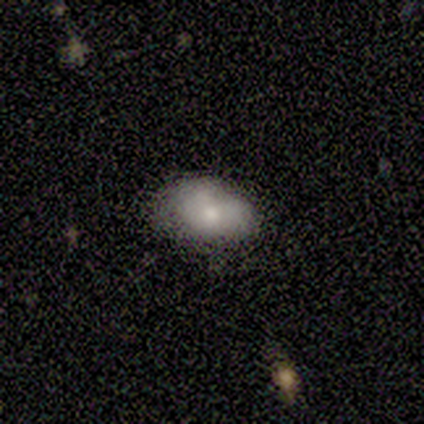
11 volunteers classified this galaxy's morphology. type=smooth (64%); roundness=in between (86%); merging=none (73%).